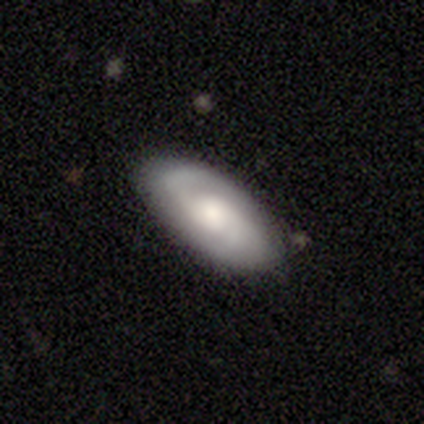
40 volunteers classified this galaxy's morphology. smooth-or-featured: featured or disk: 78% | smooth: 22% | star or artifact: 0%
  disk-edge-on: no: 94% | yes: 6%
    bar: no: 62% | weak: 28% | strong: 10%
    has-spiral-arms: yes: 93% | no: 7%
      spiral-winding: medium: 52% | tight: 26% | loose: 22%
      spiral-arm-count: 2: 89% | can't tell: 7% | 1: 4% | 3: 0% | 4: 0% | more than 4: 0%
    bulge-size: large: 31% | moderate: 28% | small: 24% | none: 10% | dominant: 7%
  merging: none: 70% | minor disturbance: 22% | merger: 5% | major disturbance: 2%